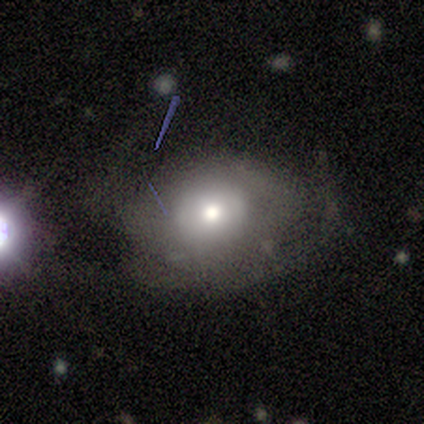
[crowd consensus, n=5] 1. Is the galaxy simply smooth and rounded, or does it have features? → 60% featured or disk, 40% smooth, 0% star or artifact.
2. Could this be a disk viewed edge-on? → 100% no, 0% yes.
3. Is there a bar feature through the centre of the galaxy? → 100% no, 0% strong, 0% weak.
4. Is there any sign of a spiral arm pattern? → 100% no, 0% yes.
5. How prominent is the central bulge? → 100% moderate, 0% dominant, 0% large, 0% small, 0% none.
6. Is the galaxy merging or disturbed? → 60% major disturbance, 40% minor disturbance, 0% none, 0% merger.